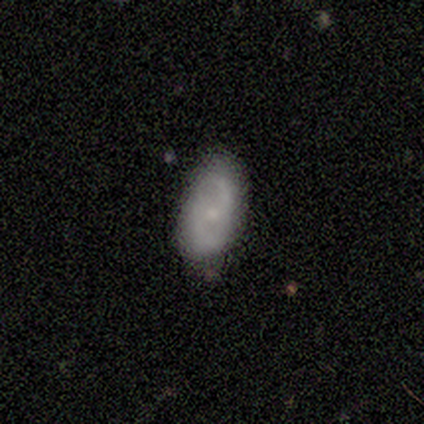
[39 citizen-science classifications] A featured or disk galaxy (62%) with no bar (65%), 2 (90%) medium (52%) spiral arms (91%) and a small central bulge (57%). Merging: none (75%).